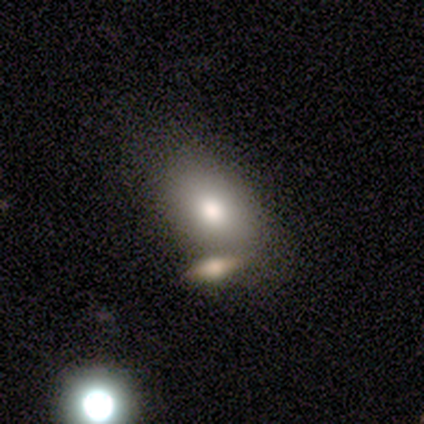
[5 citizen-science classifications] This appears to be a smooth galaxy with no disk features (80%) that is in between round and cigar-shaped (100%). Merging: none (60%).